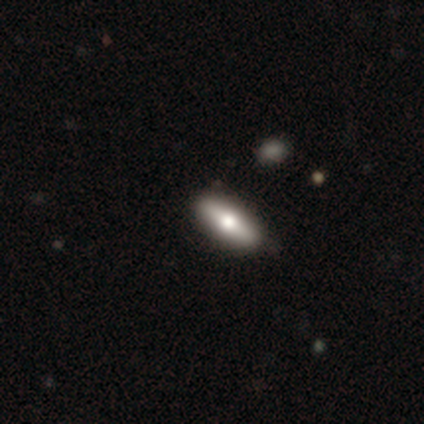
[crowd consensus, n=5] smooth 60%, featured or disk 20%, star or artifact 20%. Down the decision tree: how rounded — in between (67%); merging — none (100%).